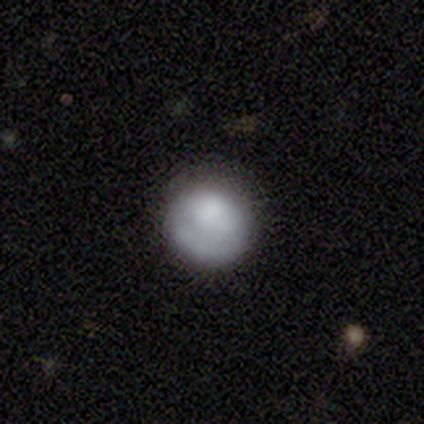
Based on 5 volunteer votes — Morphology: type=smooth (80%); roundness=round (100%); merging=none (100%).